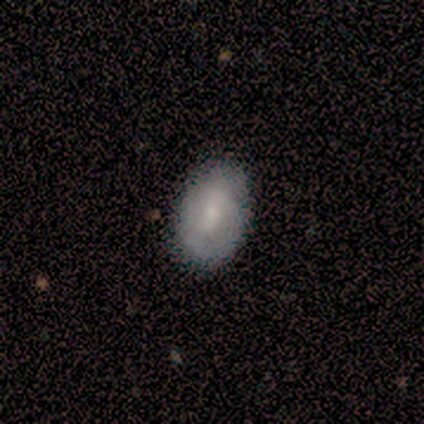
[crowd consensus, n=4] A smooth galaxy with no disk features (50%) that is in between round and cigar-shaped (100%).

Vote fractions:
- Smooth or featured? smooth: 50% / featured or disk: 25% / star or artifact: 25%
- How rounded? in between: 100% / round: 0% / cigar-shaped: 0%
- Merging? none: 100% / minor disturbance: 0% / major disturbance: 0% / merger: 0%